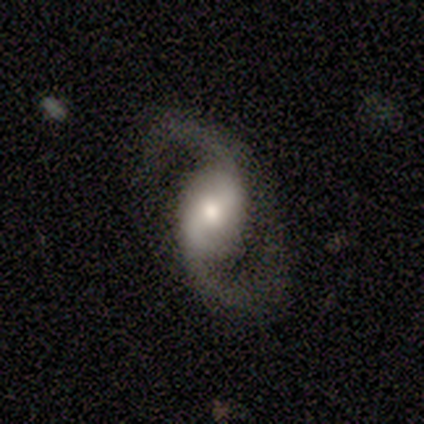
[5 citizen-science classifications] A featured or disk galaxy (80%) with a weak bar (50%, tied with no), 2 (100%) medium (100%) spiral arms (75%) and a small central bulge (50%).

Vote fractions:
- Smooth or featured? featured or disk: 80% / smooth: 20% / star or artifact: 0%
- Edge-on disk? no: 100% / yes: 0%
- Bar? weak: 50% (tied) / no: 50% (tied) / strong: 0%
- Spiral arms? yes: 75% / no: 25%
- Spiral winding? medium: 100% / tight: 0% / loose: 0%
- Spiral arm count? 2: 100% / 1: 0% / 3: 0% / 4: 0% / more than 4: 0% / can't tell: 0%
- Bulge size? small: 50% / large: 25% / moderate: 25% / dominant: 0% / none: 0%
- Merging? none: 60% / minor disturbance: 20% / major disturbance: 20% / merger: 0%